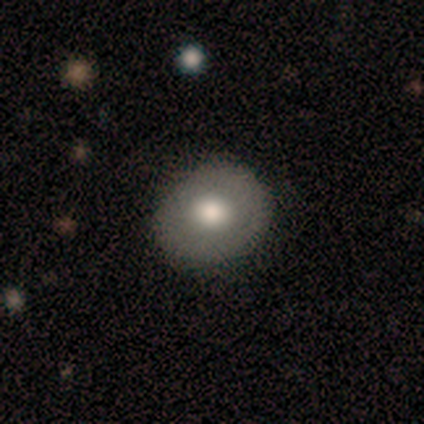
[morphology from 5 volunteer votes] Q: Smooth or featured?
A: smooth (40%); tied with: featured or disk (40%)
Q: How rounded?
A: round (100%)
Q: Merging?
A: none (75%); runner-up: minor disturbance (25%)